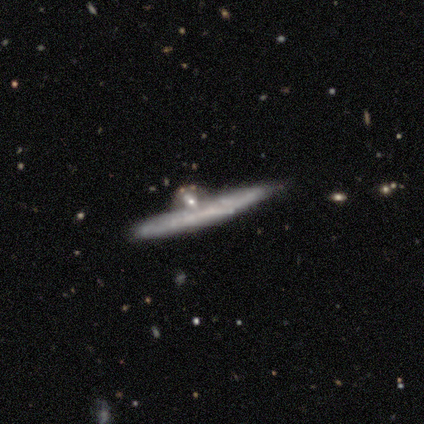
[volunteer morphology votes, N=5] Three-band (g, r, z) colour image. It shows a featured or disk galaxy (80%) viewed edge-on (100%) with no central bulge (75%). Merging: major disturbance (50%, tied with merger).